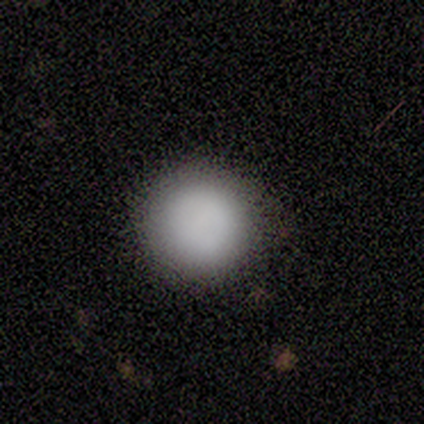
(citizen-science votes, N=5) Q: Smooth or featured?
A: smooth (80%); runner-up: featured or disk (20%)
Q: How rounded?
A: round (100%)
Q: Merging?
A: none (80%); runner-up: minor disturbance (20%)